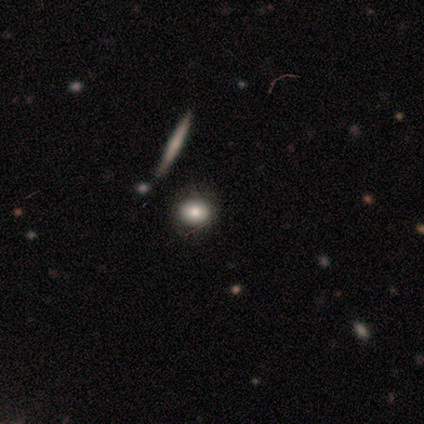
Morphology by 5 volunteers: Smooth or featured? 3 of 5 (60%) said smooth. How rounded? 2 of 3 (67%) said round. Merging? 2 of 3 (67%) said none.